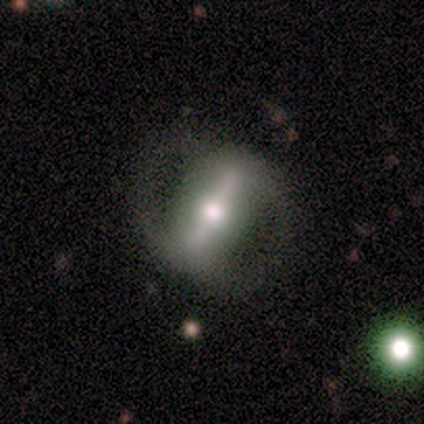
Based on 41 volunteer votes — Smooth or featured? featured or disk (95%)
Edge-on disk? no (82%)
Bar? strong (97%)
Spiral arms? yes (66%)
Spiral winding? medium (43%)
Spiral arm count? 2 (95%)
Bulge size? moderate (56%)
Merging? none (72%)